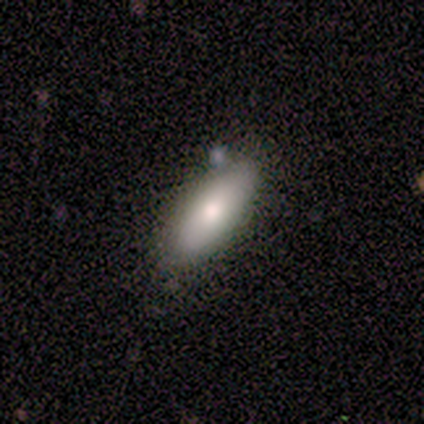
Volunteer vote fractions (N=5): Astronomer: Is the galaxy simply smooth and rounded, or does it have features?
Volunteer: smooth — 100%.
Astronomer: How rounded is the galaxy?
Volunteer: in between — 80%.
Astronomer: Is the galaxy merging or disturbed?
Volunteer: none — 80%.